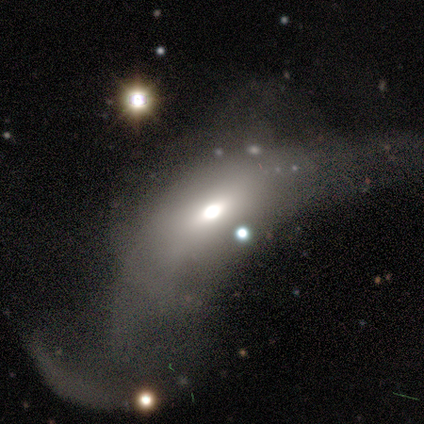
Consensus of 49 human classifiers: featured or disk 47%, smooth 45%, star or artifact 8%. Down the decision tree: edge-on disk — no (78%); bar — no (78%); spiral arms — no (100%); bulge size — moderate (67%); merging — major disturbance (82%).